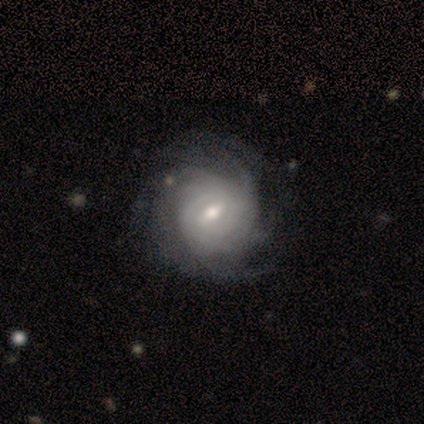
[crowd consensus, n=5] Overall: featured or disk (100%). Edge-on disk: no (100%). Bar: weak (80%). Spiral arms: yes (100%). Spiral arm count: can't tell (80%). Spiral winding: tight (100%). Bulge size: moderate (60%; small 40%). Merging: none (80%).